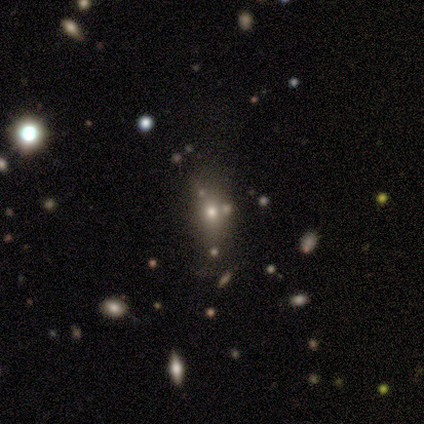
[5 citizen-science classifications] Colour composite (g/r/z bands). It shows a smooth galaxy with no disk features (80%) that is in between round and cigar-shaped (100%). Merging: none (75%).